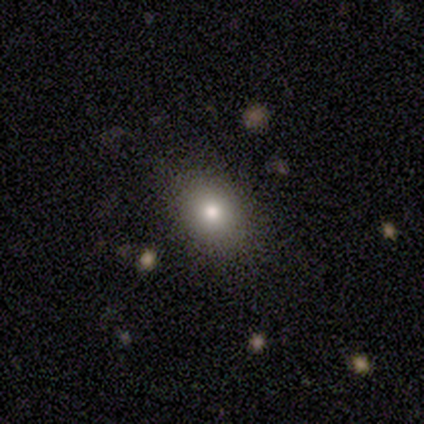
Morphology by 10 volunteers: smooth_or_featured: smooth (p=0.90) [alt: star or artifact p=0.10]
how_rounded: in between (p=0.67) [alt: round p=0.33]
merging: none (p=1.00)